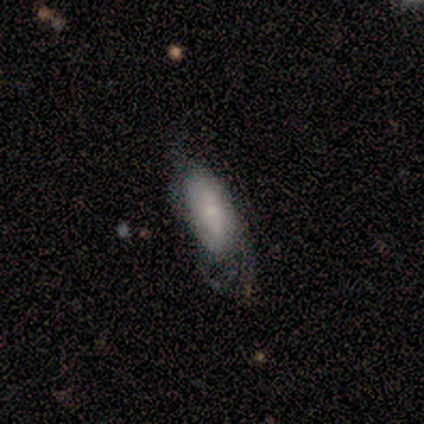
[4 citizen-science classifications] smooth_or_featured: featured or disk (p=0.50) [alt: smooth p=0.25]
disk_edge_on: no (p=1.00)
bar: weak (p=0.50) [tied with: no p=0.50]
has_spiral_arms: yes (p=1.00)
spiral_winding: tight (p=0.50) [tied with: medium p=0.50]
spiral_arm_count: 1 (p=0.50) [tied with: can't tell p=0.50]
bulge_size: moderate (p=1.00)
merging: none (p=0.33) [tied with: minor disturbance p=0.33, merger p=0.33]